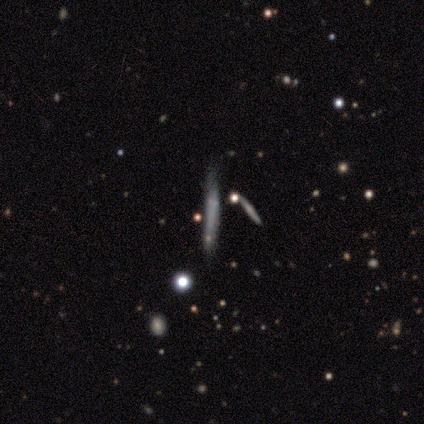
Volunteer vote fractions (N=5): Morphology: type=smooth (40%, tied with star or artifact); roundness=cigar-shaped (100%); merging=none (67%).